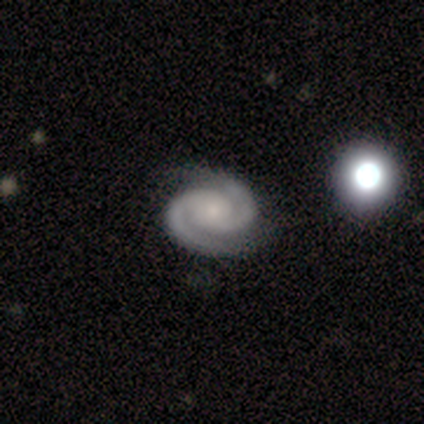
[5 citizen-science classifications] A featured or disk galaxy (80%) with no bar (100%), 2 (100%) tight (100%) spiral arms (100%) and a moderate central bulge (50%). Merging: none (60%).